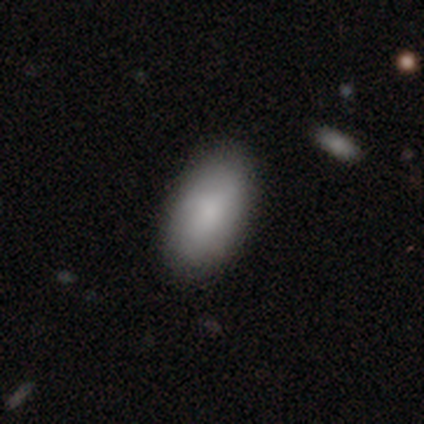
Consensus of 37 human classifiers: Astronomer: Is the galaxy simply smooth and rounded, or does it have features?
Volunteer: smooth — 92%.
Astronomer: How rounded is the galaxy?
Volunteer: in between — 91%.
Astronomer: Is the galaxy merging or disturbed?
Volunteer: none — 86%.